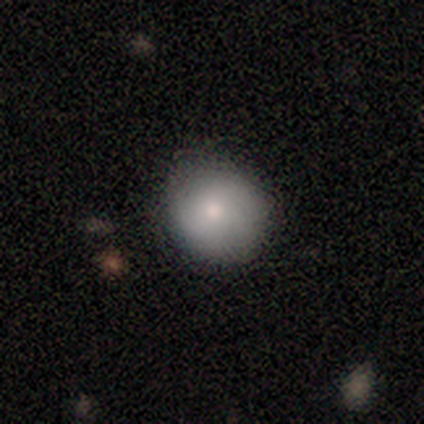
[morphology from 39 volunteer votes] Smooth or featured?
  - smooth: 79% *
  - featured or disk: 10%
  - star or artifact: 10%
How rounded?
  - round: 94% *
  - in between: 6%
  - cigar-shaped: 0%
Merging?
  - none: 86% *
  - minor disturbance: 11%
  - merger: 3%
  - major disturbance: 0%